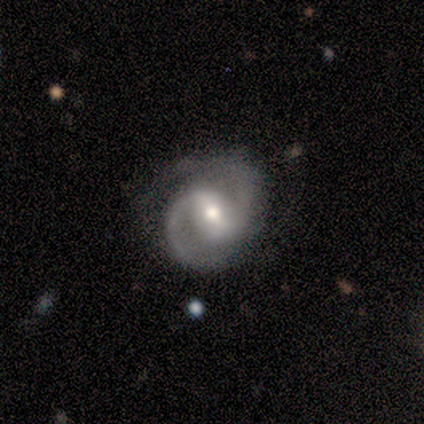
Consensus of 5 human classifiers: Volunteers were most divided on "merging" (3-way tie): none: 33%, minor disturbance: 33%, major disturbance: 33%, merger: 0%. More confident: edge-on disk — no (100%); bar — weak (100%); spiral arms — yes (100%); spiral winding — medium (100%); spiral arm count — 2 (100%); bulge size — moderate (67%); smooth or featured — featured or disk (60%).